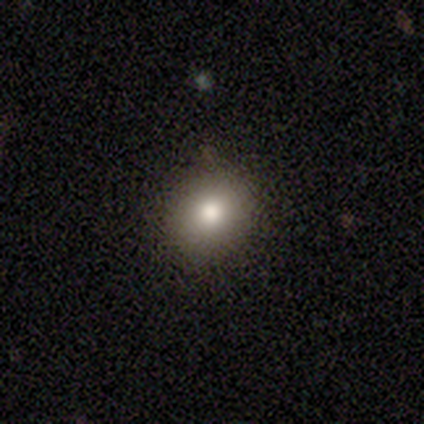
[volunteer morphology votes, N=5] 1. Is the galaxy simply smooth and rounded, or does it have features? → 100% smooth, 0% featured or disk, 0% star or artifact.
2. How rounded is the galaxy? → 60% round, 40% in between, 0% cigar-shaped.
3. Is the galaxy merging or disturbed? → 100% none, 0% minor disturbance, 0% major disturbance, 0% merger.